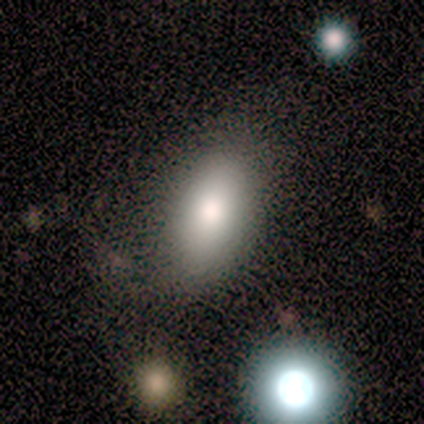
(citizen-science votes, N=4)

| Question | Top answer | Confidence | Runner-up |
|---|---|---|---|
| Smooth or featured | smooth | 75% | featured or disk (25%) |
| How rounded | in between | 100% | — |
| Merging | none | 75% | minor disturbance (25%) |